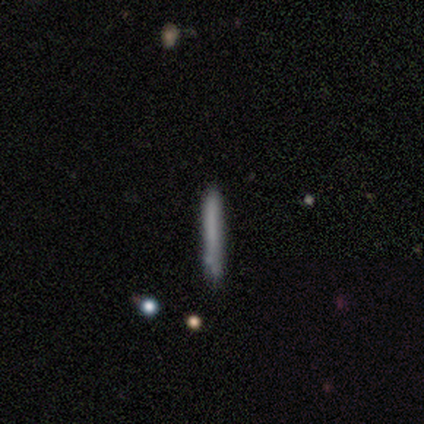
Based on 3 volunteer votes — smooth 67%, featured or disk 33%, star or artifact 0%. Down the decision tree: how rounded — cigar-shaped (100%); merging — none (100%).